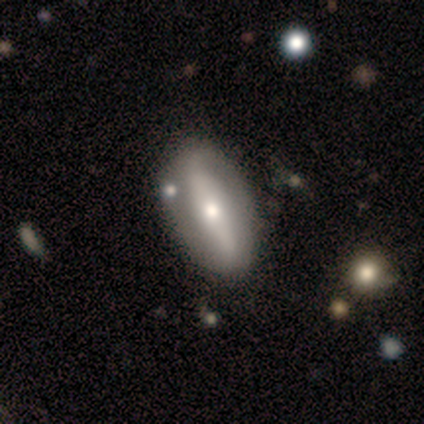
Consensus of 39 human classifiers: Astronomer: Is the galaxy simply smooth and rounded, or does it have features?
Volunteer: featured or disk — 64%.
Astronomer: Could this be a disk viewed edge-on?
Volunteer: no — 88%.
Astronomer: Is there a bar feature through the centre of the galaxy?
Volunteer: strong — 50% (runner-up: weak, 32%).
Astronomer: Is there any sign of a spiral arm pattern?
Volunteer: yes — 59% (runner-up: no, 41%).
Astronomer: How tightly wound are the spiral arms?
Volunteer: loose — 46% (runner-up: medium, 38%).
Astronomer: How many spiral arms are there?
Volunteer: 2 — 92%.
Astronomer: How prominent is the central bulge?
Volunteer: moderate — 64%.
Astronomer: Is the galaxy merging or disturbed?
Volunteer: none — 59%.